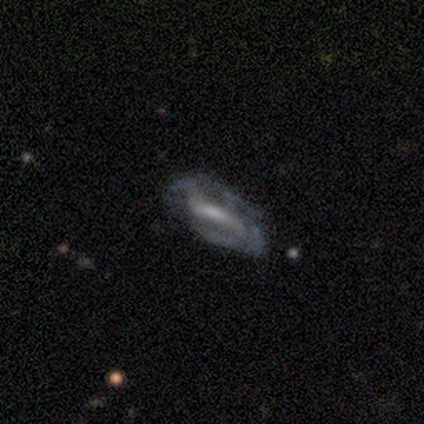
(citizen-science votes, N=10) A featured or disk galaxy (100%) with a strong bar (89%), 2 (43%) medium (43%) spiral arms (78%) and a moderate central bulge (44%, tied with small).

Vote fractions:
- Smooth or featured? featured or disk: 100% / smooth: 0% / star or artifact: 0%
- Edge-on disk? no: 90% / yes: 10%
- Bar? strong: 89% / no: 11% / weak: 0%
- Spiral arms? yes: 78% / no: 22%
- Spiral winding? medium: 43% / tight: 29% / loose: 29%
- Spiral arm count? 2: 43% / 4: 29% / 3: 14% / can't tell: 14% / 1: 0% / more than 4: 0%
- Bulge size? moderate: 44% (tied) / small: 44% (tied) / none: 11% / dominant: 0% / large: 0%
- Merging? none: 40% (tied) / minor disturbance: 40% (tied) / major disturbance: 20% / merger: 0%